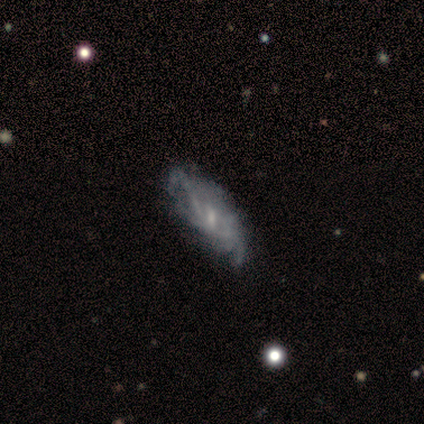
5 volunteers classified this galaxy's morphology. smooth_or_featured: featured or disk (p=0.80) [alt: smooth p=0.20]
disk_edge_on: no (p=1.00)
bar: weak (p=1.00)
has_spiral_arms: yes (p=0.75) [alt: no p=0.25]
spiral_winding: loose (p=0.67) [alt: tight p=0.33]
spiral_arm_count: can't tell (p=1.00)
bulge_size: small (p=0.50) [alt: moderate p=0.25]
merging: minor disturbance (p=0.60) [alt: none p=0.20]